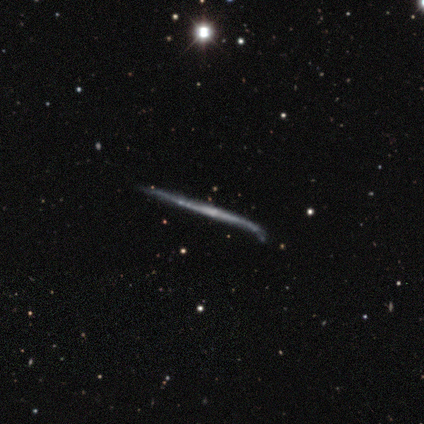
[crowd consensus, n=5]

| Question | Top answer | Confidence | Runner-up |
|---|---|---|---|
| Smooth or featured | featured or disk | 100% | — |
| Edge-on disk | yes | 100% | — |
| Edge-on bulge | none | 80% | rounded (20%) |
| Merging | minor disturbance | 60% | none (40%) |